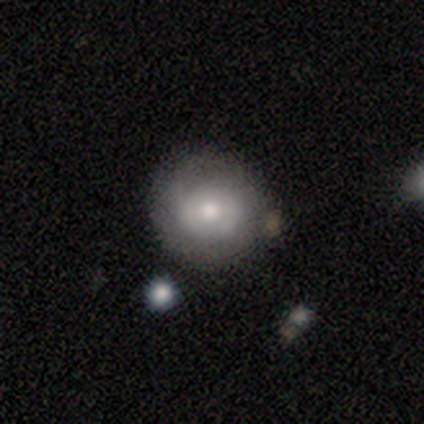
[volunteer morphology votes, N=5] A smooth galaxy with no disk features (60%) that is in between round and cigar-shaped (67%).

Vote fractions:
- Smooth or featured? smooth: 60% / featured or disk: 40% / star or artifact: 0%
- How rounded? in between: 67% / round: 33% / cigar-shaped: 0%
- Merging? none: 100% / minor disturbance: 0% / major disturbance: 0% / merger: 0%